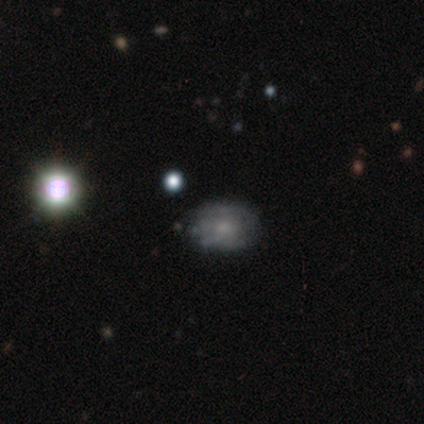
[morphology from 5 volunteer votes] Volunteers were most divided on "smooth or featured" (2-way tie): featured or disk: 40%, star or artifact: 40%, smooth: 20%; "spiral arms" (2-way tie): yes: 50%, no: 50%; "bulge size" (2-way tie): moderate: 50%, small: 50%, dominant: 0%, large: 0%, none: 0%. More confident: edge-on disk — no (100%); bar — no (100%); spiral winding — medium (100%); spiral arm count — can't tell (100%); merging — none (67%).